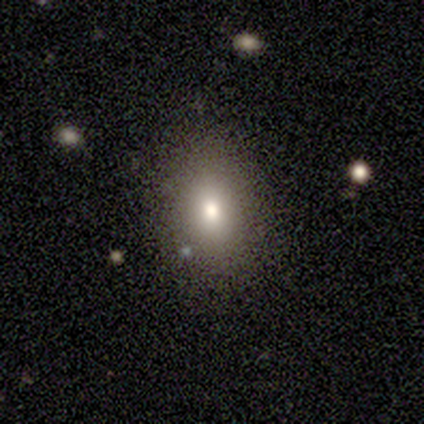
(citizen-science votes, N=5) Smooth or featured? smooth (100%)
How rounded? in between (80%)
Merging? none (100%)